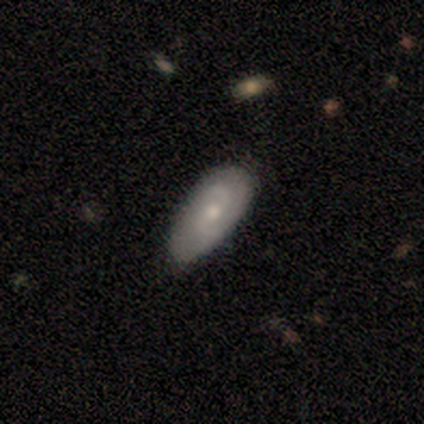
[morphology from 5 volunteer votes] Q: Smooth or featured?
A: smooth (40%); tied with: featured or disk (40%)
Q: How rounded?
A: in between (100%)
Q: Merging?
A: none (75%); runner-up: major disturbance (25%)